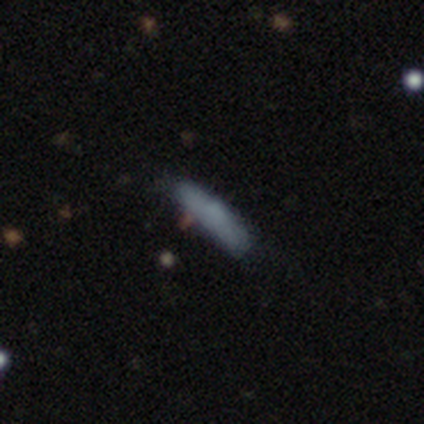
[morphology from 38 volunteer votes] Smooth or featured?
  - smooth: 71% *
  - featured or disk: 24%
  - star or artifact: 5%
How rounded?
  - cigar-shaped: 59% *
  - in between: 41%
  - round: 0%
Merging?
  - none: 61% *
  - minor disturbance: 31%
  - major disturbance: 6%
  - merger: 3%